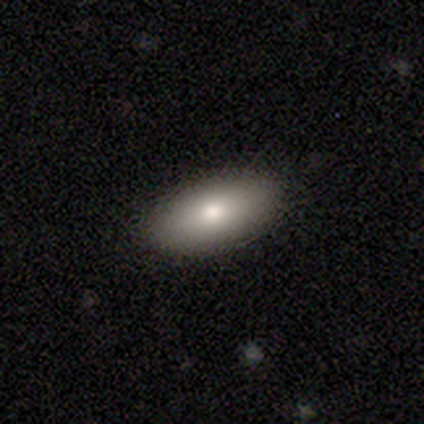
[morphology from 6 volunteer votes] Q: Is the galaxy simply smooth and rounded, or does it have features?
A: smooth — 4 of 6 (67%).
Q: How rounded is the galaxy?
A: in between — 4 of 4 (100%).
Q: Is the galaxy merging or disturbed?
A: none — 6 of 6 (100%).